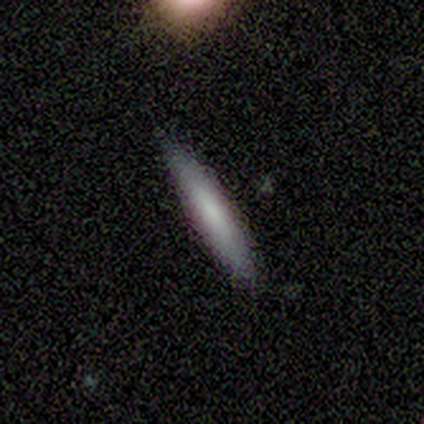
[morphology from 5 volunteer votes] Q: Smooth or featured?
A: smooth (100%)
Q: How rounded?
A: cigar-shaped (80%); runner-up: in between (20%)
Q: Merging?
A: none (80%); runner-up: minor disturbance (20%)